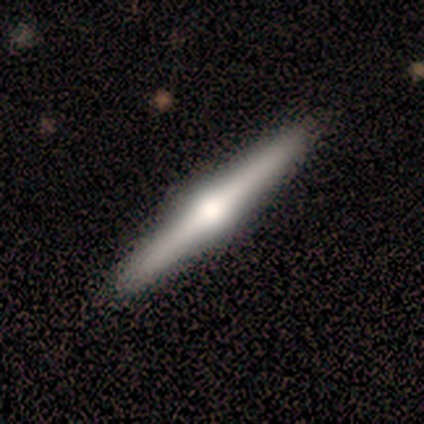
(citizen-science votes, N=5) smooth_or_featured: featured or disk (p=1.00)
disk_edge_on: yes (p=1.00)
edge_on_bulge: rounded (p=1.00)
merging: none (p=1.00)